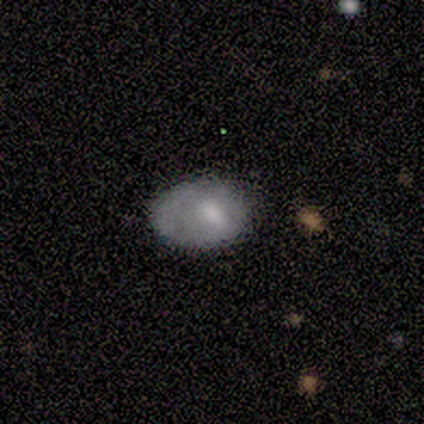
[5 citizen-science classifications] This is likely a smooth galaxy (60%). How rounded: clearly in between (100%). Merging: possibly none (50%).